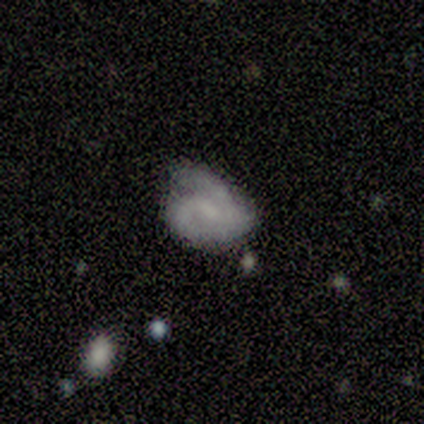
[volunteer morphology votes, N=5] This appears to be a featured or disk galaxy (60%) with a weak bar (67%), 2 (50%, tied with 3) tight (50%, tied with loose) spiral arms (67%) and a moderate central bulge (33%, tied with small and none). Merging: minor disturbance (60%).